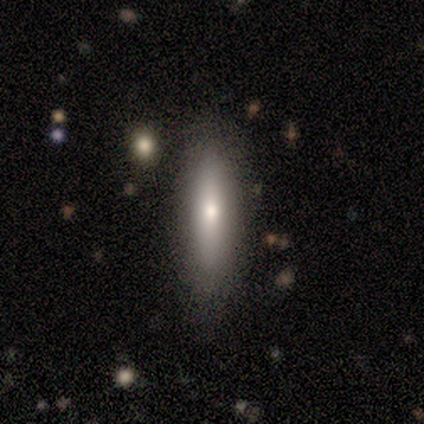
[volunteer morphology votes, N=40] smooth_or_featured: smooth (p=0.72) [alt: featured or disk p=0.25]
how_rounded: cigar-shaped (p=0.72) [alt: in between p=0.28]
merging: none (p=0.74) [alt: minor disturbance p=0.18]